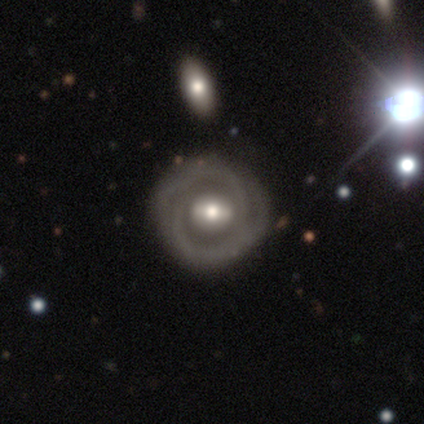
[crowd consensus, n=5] smooth-or-featured: featured or disk: 80% | smooth: 20% | star or artifact: 0%
  disk-edge-on: no: 100% | yes: 0%
    bar: weak: 50% | strong: 25% | no: 25%
    has-spiral-arms: yes: 75% | no: 25%
      spiral-winding: tight: 67% | medium: 33% | loose: 0%
      spiral-arm-count: can't tell: 67% | 2: 33% | 1: 0% | 3: 0% | 4: 0% | more than 4: 0%
    bulge-size: moderate: 100% | dominant: 0% | large: 0% | small: 0% | none: 0%
  merging: none: 100% | minor disturbance: 0% | major disturbance: 0% | merger: 0%